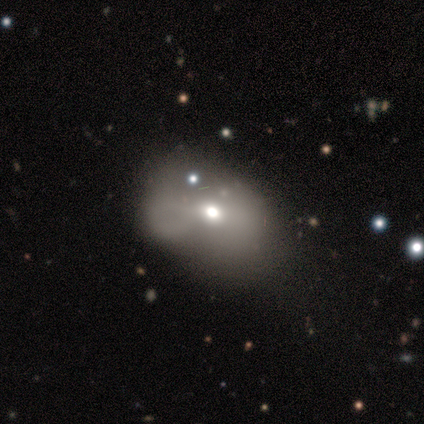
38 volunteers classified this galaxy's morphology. smooth-or-featured: smooth: 76% | featured or disk: 16% | star or artifact: 8%
  how-rounded: in between: 69% | round: 31% | cigar-shaped: 0%
  merging: minor disturbance: 43% | none: 34% | major disturbance: 14% | merger: 9%